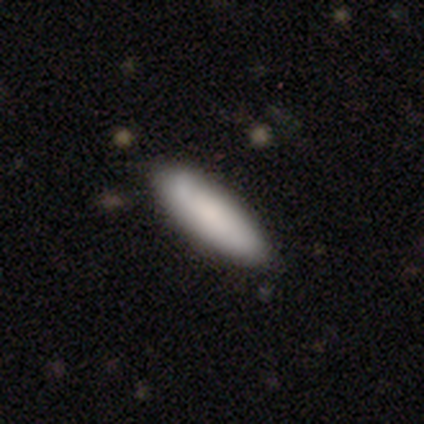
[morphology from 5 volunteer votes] Smooth or featured? 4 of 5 (80%) said smooth. How rounded? 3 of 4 (75%) said in between. Merging? 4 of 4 (100%) said none.